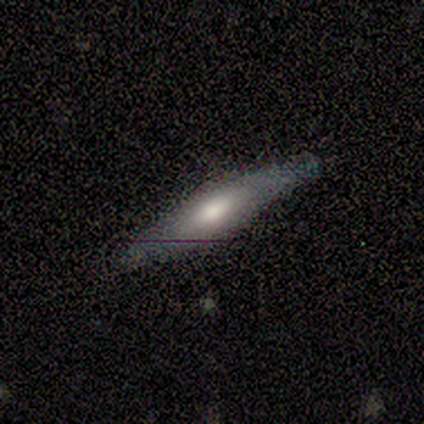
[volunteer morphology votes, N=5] Smooth or featured? 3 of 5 (60%) said featured or disk. Edge-on disk? 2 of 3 (67%) said no. Bar? 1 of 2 (50%, tied with no) said weak. Spiral arms? 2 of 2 (100%) said no. Bulge size? 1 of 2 (50%, tied with small) said moderate. Merging? 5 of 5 (100%) said none.